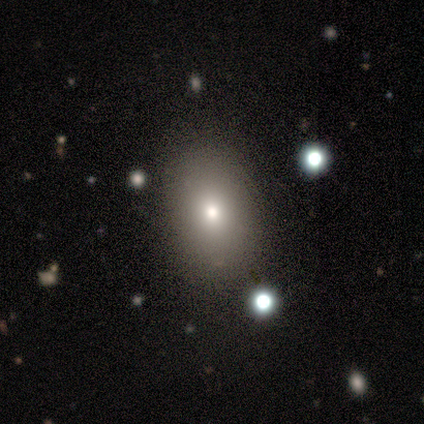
smooth-or-featured: smooth: 77% | star or artifact: 15% | featured or disk: 8%
  how-rounded: in between: 63% | round: 33% | cigar-shaped: 3%
  merging: none: 85% | minor disturbance: 12% | major disturbance: 3% | merger: 0%